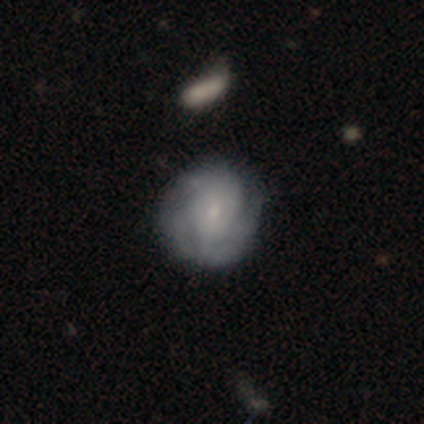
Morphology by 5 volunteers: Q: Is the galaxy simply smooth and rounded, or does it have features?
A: featured or disk — 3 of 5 (60%).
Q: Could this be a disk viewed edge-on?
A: no — 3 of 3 (100%).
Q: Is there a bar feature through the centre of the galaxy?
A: no — 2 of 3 (67%).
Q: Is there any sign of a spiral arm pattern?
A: yes — 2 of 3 (67%).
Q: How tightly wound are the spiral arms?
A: tight — 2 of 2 (100%).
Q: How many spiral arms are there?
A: can't tell — 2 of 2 (100%).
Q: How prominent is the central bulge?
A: small — 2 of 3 (67%).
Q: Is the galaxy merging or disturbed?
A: none — 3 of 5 (60%).